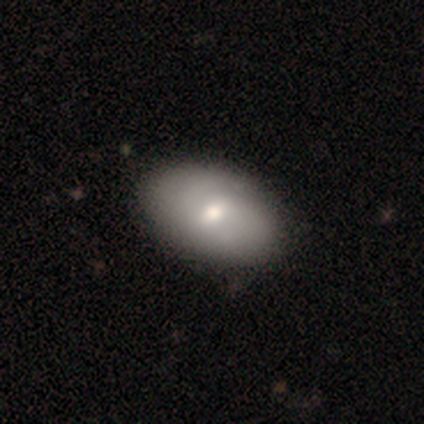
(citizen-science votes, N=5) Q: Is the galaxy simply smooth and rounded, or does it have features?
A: smooth — 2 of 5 (40%, tied with featured or disk).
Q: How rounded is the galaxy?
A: in between — 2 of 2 (100%).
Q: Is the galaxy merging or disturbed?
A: none — 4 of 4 (100%).